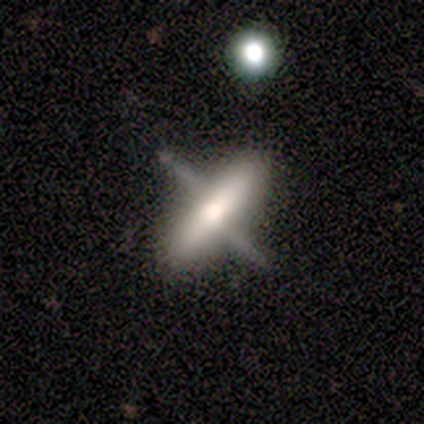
Smooth or featured: smooth — 60% (featured or disk — 40%)
How rounded: in between — 67% (cigar-shaped — 33%)
Merging: none — 80% (major disturbance — 20%)